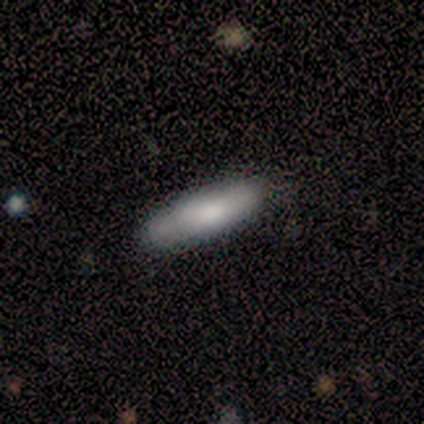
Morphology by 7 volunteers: type=smooth (100%); roundness=cigar-shaped (71%); merging=none (100%).